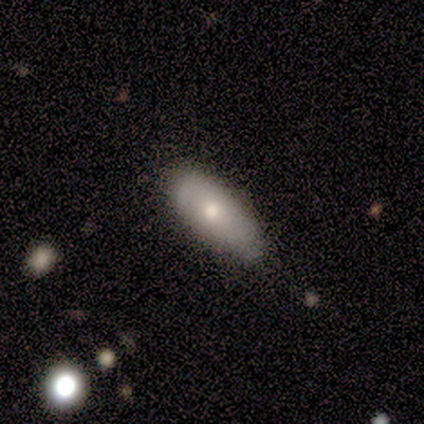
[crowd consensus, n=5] This is clearly a smooth galaxy (80%). How rounded: likely in between (75%). Merging: marginally none (40%, tied with minor disturbance).